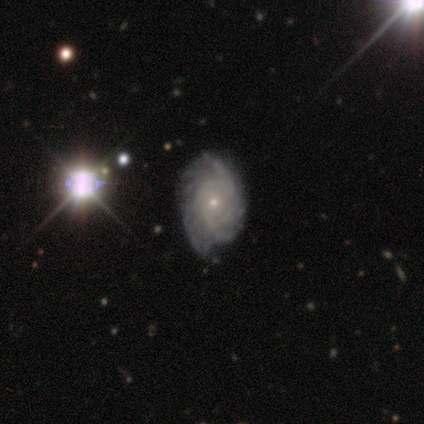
Volunteers were most divided on "spiral arm count": can't tell: 38%, more than 4: 24%, 3: 14%, 4: 14%, 2: 10%, 1: 0%. More confident: edge-on disk — no (100%); spiral arms — yes (95%); bar — no (91%); bulge size — small (91%); merging — none (77%); smooth or featured — featured or disk (73%); spiral winding — tight (71%).